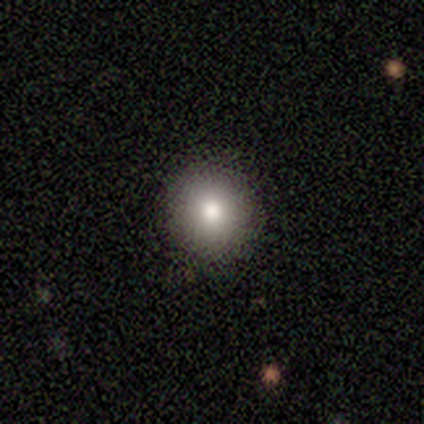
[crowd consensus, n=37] smooth_or_featured: smooth (p=0.68) [alt: star or artifact p=0.22]
how_rounded: round (p=1.00)
merging: none (p=0.93) [alt: minor disturbance p=0.03]